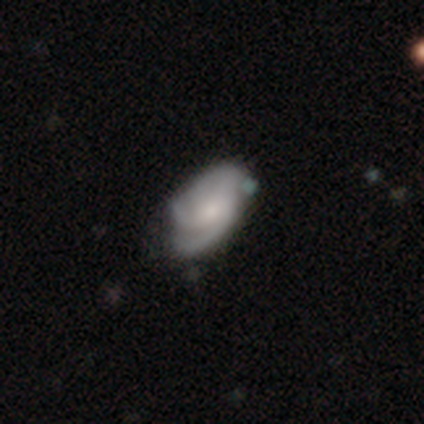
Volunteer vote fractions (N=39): featured or disk 79%, smooth 21%, star or artifact 0%. Down the decision tree: edge-on disk — no (100%); bar — no (74%); spiral arms — yes (94%); spiral arm count — 3 (31%); spiral winding — tight (48%); bulge size — moderate (42%); merging — none (23%, tied with minor disturbance).